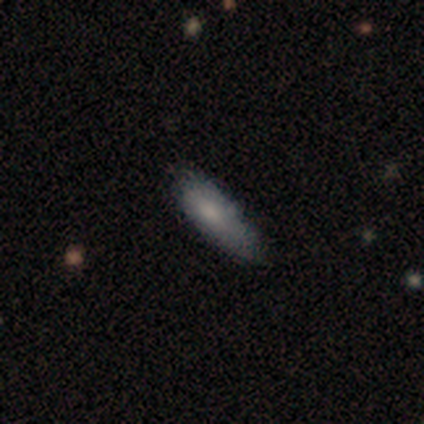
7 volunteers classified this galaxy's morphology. smooth-or-featured: smooth: 100% | featured or disk: 0% | star or artifact: 0%
  how-rounded: cigar-shaped: 71% | in between: 29% | round: 0%
  merging: none: 57% | minor disturbance: 43% | major disturbance: 0% | merger: 0%